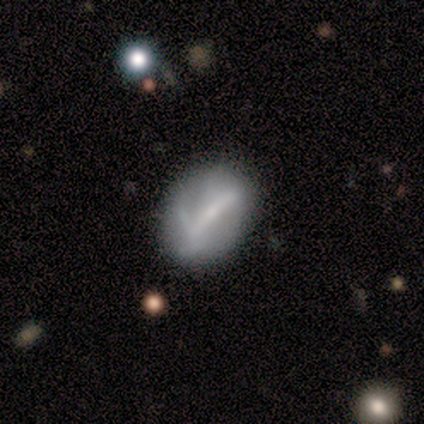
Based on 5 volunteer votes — This is likely a featured or disk galaxy (60%). It is likely not viewed edge-on (67%). Bar: possibly strong (50%, tied with weak). Spiral arm pattern: clearly no (100%). Central bulge: possibly moderate (50%, tied with small). Merging: likely none (60%).